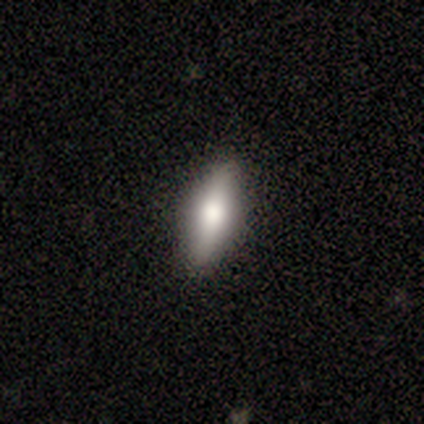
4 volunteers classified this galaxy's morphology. smooth_or_featured: featured or disk (p=0.75) [alt: smooth p=0.25]
disk_edge_on: yes (p=1.00)
edge_on_bulge: rounded (p=1.00)
merging: none (p=1.00)